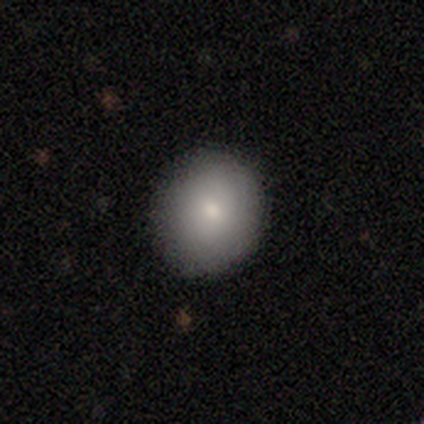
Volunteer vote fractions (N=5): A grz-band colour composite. It shows a smooth galaxy with no disk features (100%) that is round (80%). Merging: none (80%).